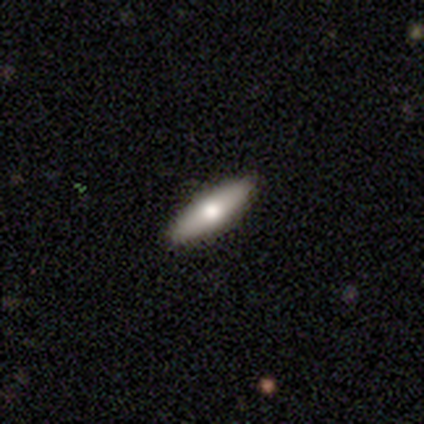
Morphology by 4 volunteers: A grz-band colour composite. It shows a smooth galaxy with no disk features (50%, tied with featured or disk) that is in between round and cigar-shaped (100%). Merging: none (100%).